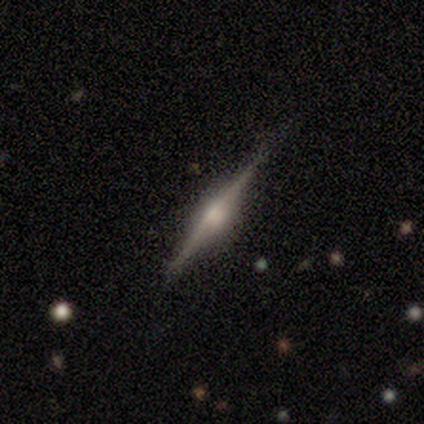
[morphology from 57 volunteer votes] Overall: featured or disk (86%). Edge-on disk: yes (100%). Edge-on bulge: rounded (86%). Merging: none (87%).